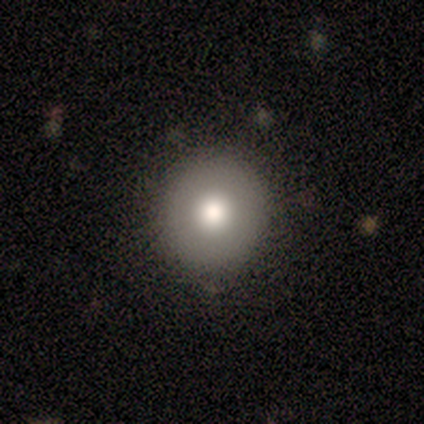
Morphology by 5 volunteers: smooth-or-featured: featured or disk: 60% | smooth: 40% | star or artifact: 0%
  disk-edge-on: no: 100% | yes: 0%
    bar: strong: 33% (tied) | weak: 33% (tied) | no: 33% (tied)
    has-spiral-arms: no: 100% | yes: 0%
    bulge-size: moderate: 100% | dominant: 0% | large: 0% | small: 0% | none: 0%
  merging: none: 100% | minor disturbance: 0% | major disturbance: 0% | merger: 0%